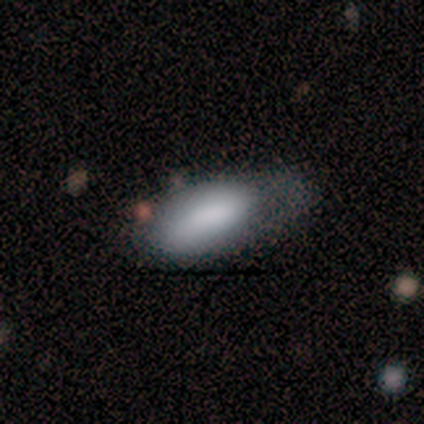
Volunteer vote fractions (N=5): Smooth or featured?
  - smooth: 100% *
  - featured or disk: 0%
  - star or artifact: 0%
How rounded?
  - in between: 80% *
  - cigar-shaped: 20%
  - round: 0%
Merging?
  - minor disturbance: 60% *
  - major disturbance: 40%
  - none: 0%
  - merger: 0%